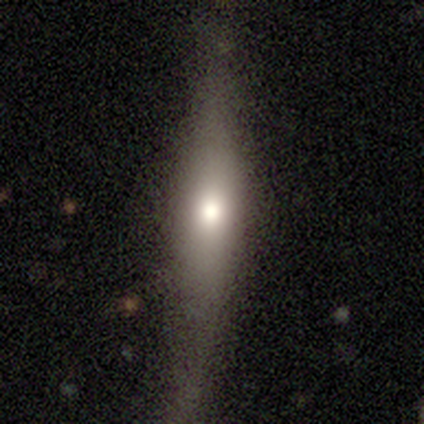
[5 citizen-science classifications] Q: Smooth or featured?
A: featured or disk (60%); runner-up: smooth (40%)
Q: Edge-on disk?
A: yes (67%); runner-up: no (33%)
Q: Edge-on bulge?
A: rounded (100%)
Q: Merging?
A: none (80%); runner-up: minor disturbance (20%)